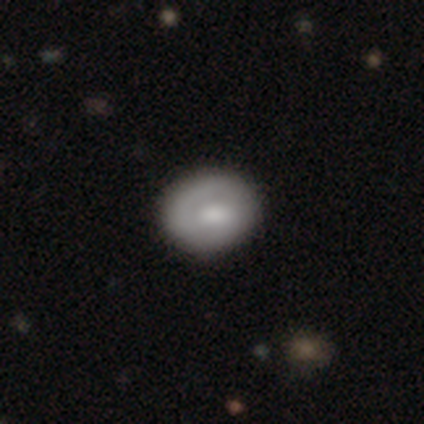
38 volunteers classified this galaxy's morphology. featured or disk 53%, smooth 47%, star or artifact 0%. Down the decision tree: edge-on disk — no (100%); bar — no (65%); spiral arms — yes (50%, tied with no); spiral arm count — 1 (40%, tied with can't tell); spiral winding — tight (50%); bulge size — moderate (55%); merging — none (61%).